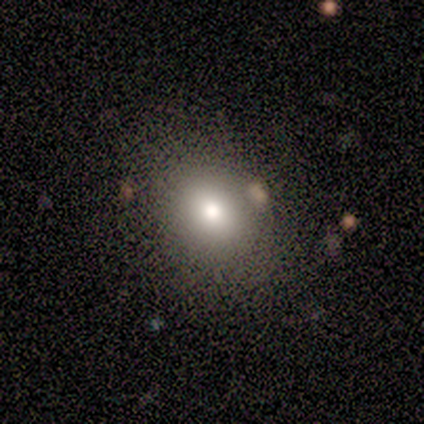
Overall: smooth (73%). How rounded: in between (55%; round 45%). Merging: none (91%).